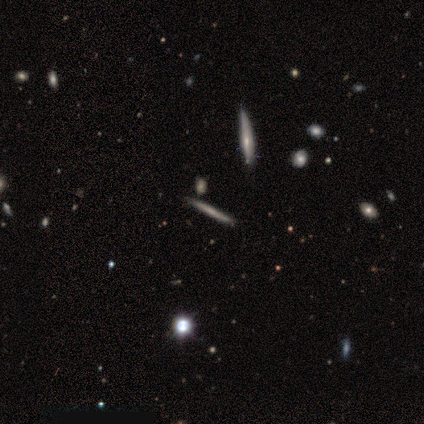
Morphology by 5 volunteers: A smooth galaxy with no disk features (60%) that is cigar-shaped (100%). Merging: none (100%).